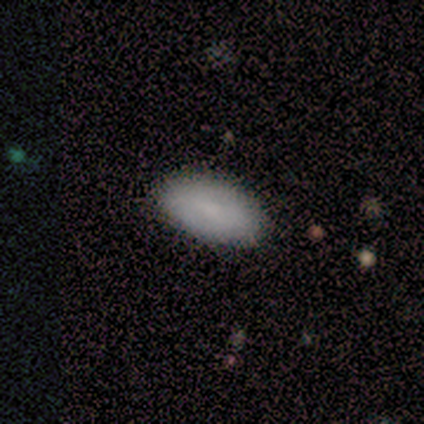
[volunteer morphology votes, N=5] This appears to be a smooth galaxy with no disk features (60%) that is in between round and cigar-shaped (100%). Merging: none (100%).